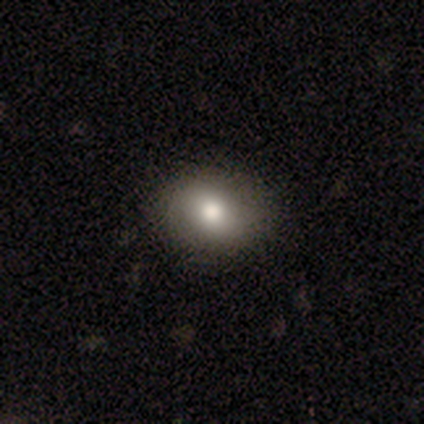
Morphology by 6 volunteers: Overall: smooth (100%). How rounded: round (50%, tied with in between). Merging: none (83%).